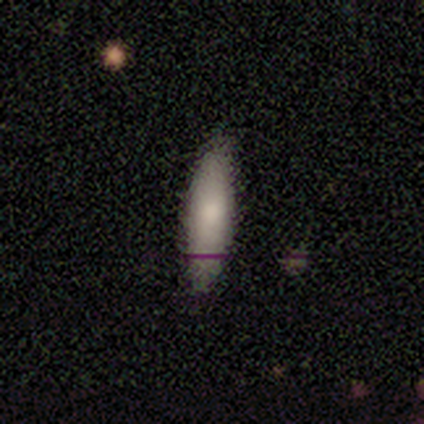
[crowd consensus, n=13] smooth 85%, star or artifact 15%, featured or disk 0%. Down the decision tree: how rounded — cigar-shaped (64%); merging — none (100%).